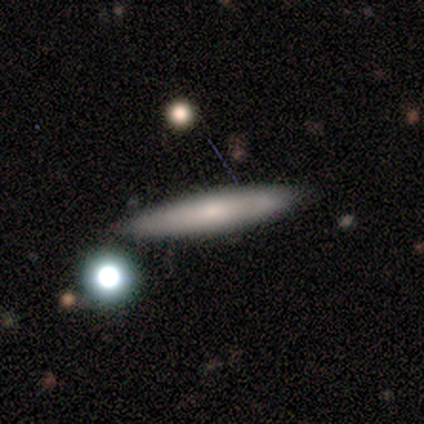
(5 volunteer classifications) Smooth or featured? 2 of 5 (40%, tied with star or artifact) said smooth. How rounded? 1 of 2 (50%, tied with cigar-shaped) said in between. Merging? 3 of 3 (100%) said none.